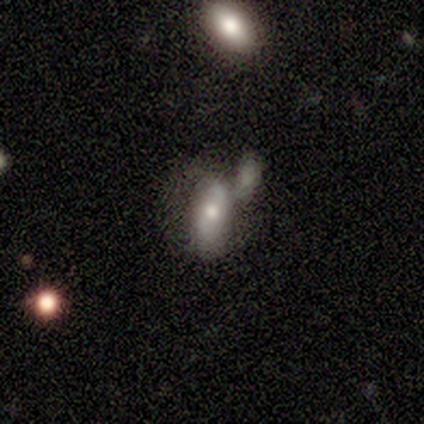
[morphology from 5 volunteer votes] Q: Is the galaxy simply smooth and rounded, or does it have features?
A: smooth — 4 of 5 (80%).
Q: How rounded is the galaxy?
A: in between — 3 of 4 (75%).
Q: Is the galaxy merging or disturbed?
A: merger — 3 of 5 (60%).